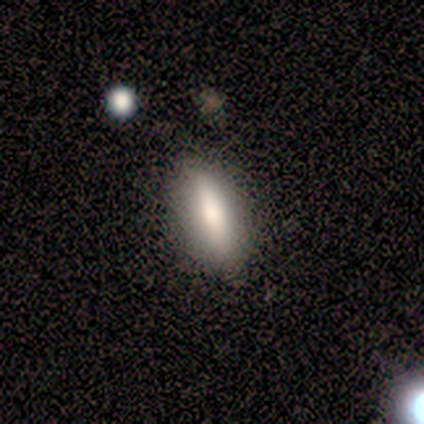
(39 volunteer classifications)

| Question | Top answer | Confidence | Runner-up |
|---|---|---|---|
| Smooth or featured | smooth | 72% | featured or disk (21%) |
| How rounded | in between | 50% | cigar-shaped (46%) |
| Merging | none | 89% | minor disturbance (8%) |